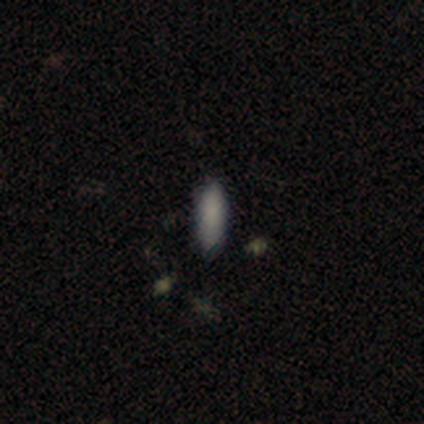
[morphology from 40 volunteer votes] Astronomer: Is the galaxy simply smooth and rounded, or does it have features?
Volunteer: smooth — 80%.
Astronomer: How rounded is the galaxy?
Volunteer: cigar-shaped — 50% (runner-up: in between, 44%).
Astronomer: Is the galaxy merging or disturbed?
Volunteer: none — 89%.